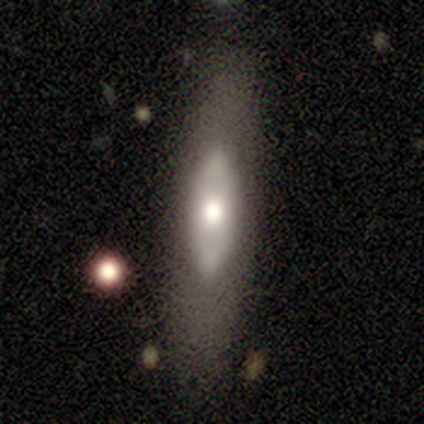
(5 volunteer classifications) Smooth or featured? 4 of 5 (80%) said smooth. How rounded? 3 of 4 (75%) said in between. Merging? 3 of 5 (60%) said none.